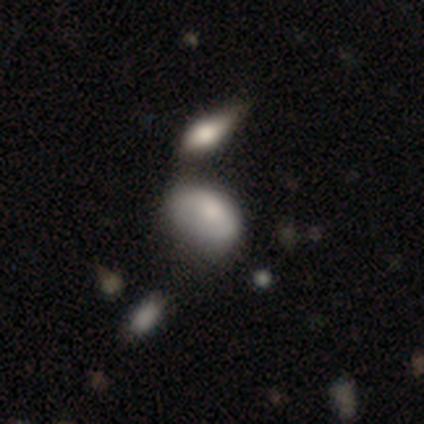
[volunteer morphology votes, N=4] Volunteers were most divided on "merging": merger: 50%, none: 25%, minor disturbance: 25%, major disturbance: 0%. More confident: smooth or featured — smooth (100%); how rounded — in between (100%).